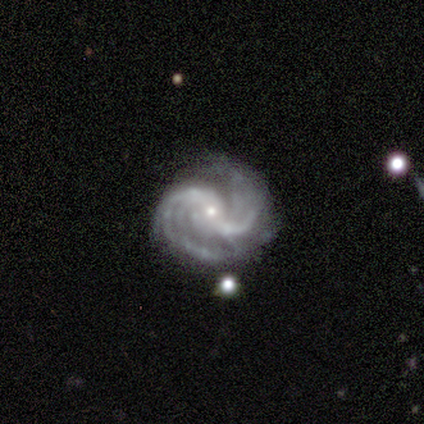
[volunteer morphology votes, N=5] Smooth or featured? 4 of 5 (80%) said featured or disk. Edge-on disk? 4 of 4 (100%) said no. Bar? 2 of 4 (50%, tied with no) said strong. Spiral arms? 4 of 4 (100%) said yes. Spiral winding? 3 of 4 (75%) said medium. Spiral arm count? 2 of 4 (50%) said 2. Bulge size? 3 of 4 (75%) said small. Merging? 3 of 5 (60%) said none.